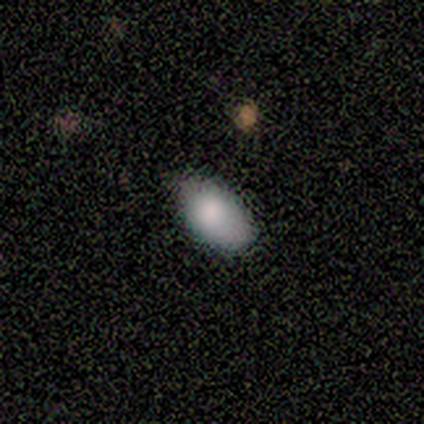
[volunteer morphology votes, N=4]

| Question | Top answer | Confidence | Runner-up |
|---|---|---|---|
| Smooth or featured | smooth | 100% | — |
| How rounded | in between | 100% | — |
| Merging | none | 75% | minor disturbance (25%) |